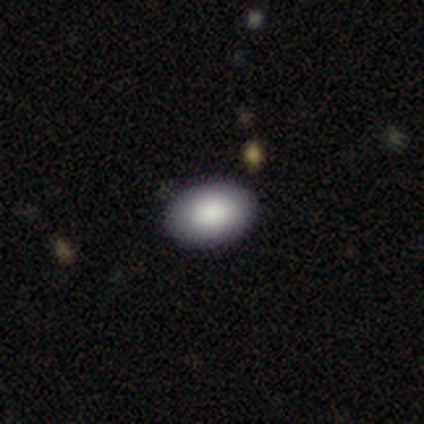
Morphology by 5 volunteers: Volunteers were most divided on "merging" (2-way tie): none: 50%, minor disturbance: 50%, major disturbance: 0%, merger: 0%. More confident: how rounded — in between (100%); smooth or featured — smooth (80%).